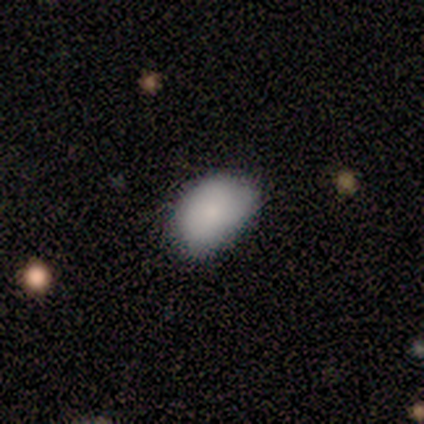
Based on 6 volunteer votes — Smooth or featured? 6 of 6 (100%) said smooth. How rounded? 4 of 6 (67%) said in between. Merging? 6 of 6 (100%) said none.